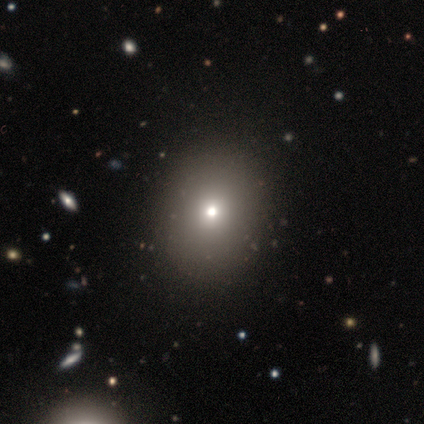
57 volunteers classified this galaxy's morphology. This appears to be a smooth galaxy with no disk features (72%) that is in between round and cigar-shaped (56%). Merging: none (70%).